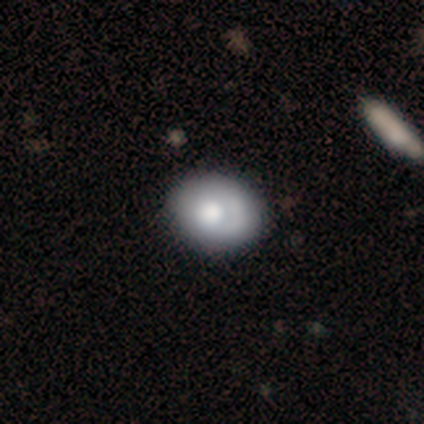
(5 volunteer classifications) Smooth or featured: smooth — 60% (featured or disk — 40%)
How rounded: round — 67% (in between — 33%)
Merging: none — 80% (minor disturbance — 20%)